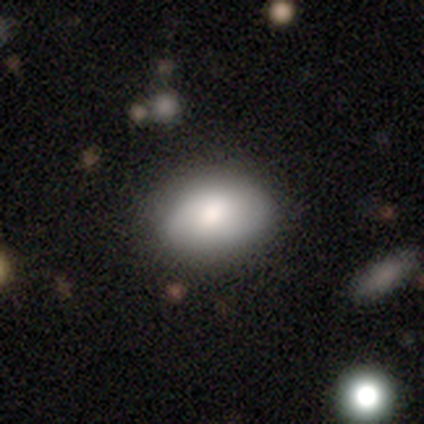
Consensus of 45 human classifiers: Smooth or featured: smooth — 82% (featured or disk — 9%)
How rounded: in between — 76% (round — 22%)
Merging: none — 76% (minor disturbance — 15%)